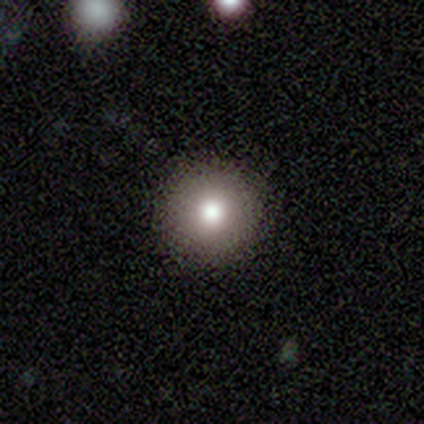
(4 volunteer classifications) Smooth or featured?
  - smooth: 50% *
  - featured or disk: 25%
  - star or artifact: 25%
How rounded?
  - round: 100% *
  - in between: 0%
  - cigar-shaped: 0%
Merging?
  - none: 100% *
  - minor disturbance: 0%
  - major disturbance: 0%
  - merger: 0%